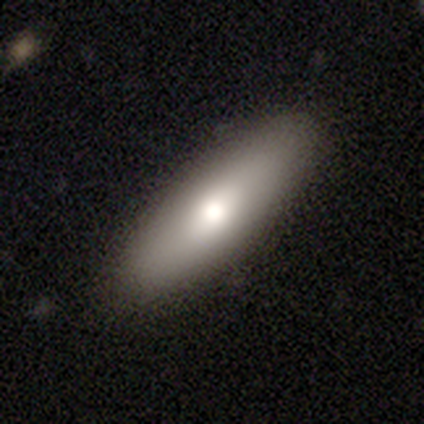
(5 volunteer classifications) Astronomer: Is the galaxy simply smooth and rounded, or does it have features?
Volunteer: featured or disk — 60% (runner-up: smooth, 40%).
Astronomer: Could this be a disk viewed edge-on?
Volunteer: no — 67%.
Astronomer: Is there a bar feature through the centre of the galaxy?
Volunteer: no — 100%.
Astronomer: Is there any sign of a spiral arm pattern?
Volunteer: no — 100%.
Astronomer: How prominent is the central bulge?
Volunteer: moderate — 100%.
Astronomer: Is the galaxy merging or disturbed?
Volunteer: none — 100%.